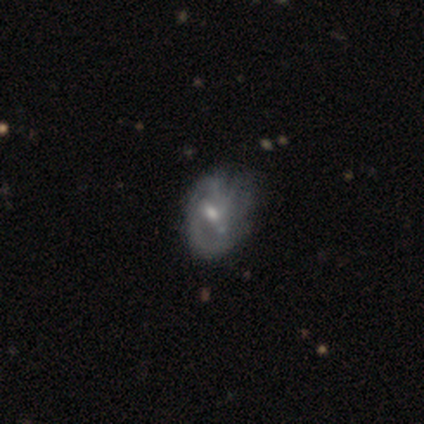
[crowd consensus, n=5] Q: Smooth or featured?
A: featured or disk (80%); runner-up: smooth (20%)
Q: Edge-on disk?
A: no (100%)
Q: Bar?
A: weak (75%); runner-up: no (25%)
Q: Spiral arms?
A: yes (100%)
Q: Spiral winding?
A: tight (75%); runner-up: medium (25%)
Q: Spiral arm count?
A: can't tell (50%); runner-up: 2 (25%)
Q: Bulge size?
A: moderate (100%)
Q: Merging?
A: minor disturbance (80%); runner-up: major disturbance (20%)